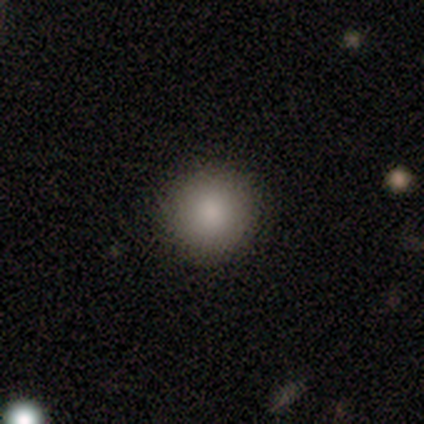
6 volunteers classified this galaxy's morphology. Volunteers were most divided on "smooth or featured": smooth: 83%, featured or disk: 17%, star or artifact: 0%. More confident: how rounded — round (100%); merging — none (100%).